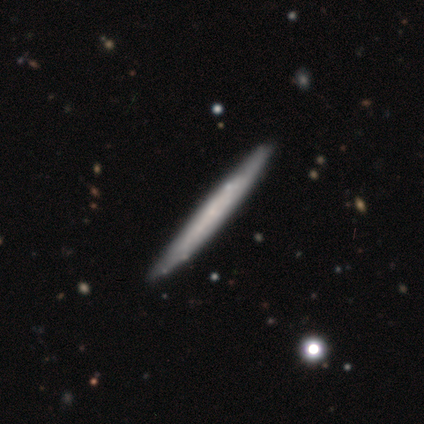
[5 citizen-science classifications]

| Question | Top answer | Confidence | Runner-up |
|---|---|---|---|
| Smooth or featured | featured or disk | 60% | smooth (40%) |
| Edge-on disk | yes | 100% | — |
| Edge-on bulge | none | 67% | rounded (33%) |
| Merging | none | 100% | — |